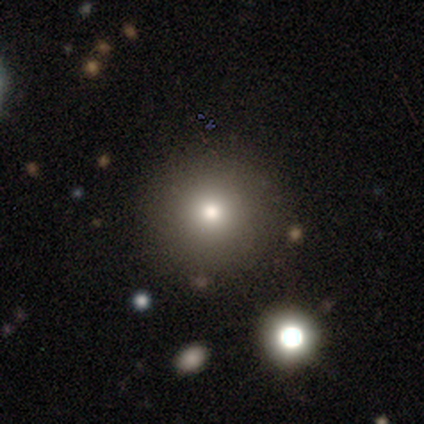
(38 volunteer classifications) This is likely a smooth galaxy (63%). How rounded: clearly round (96%). Merging: clearly none (90%).